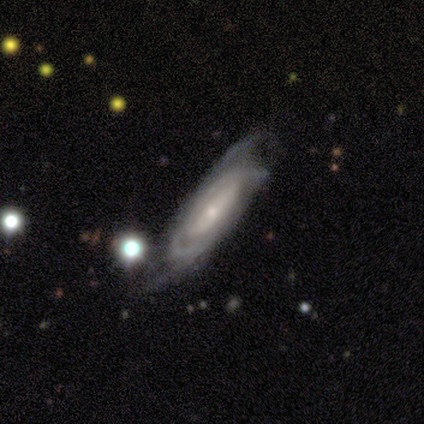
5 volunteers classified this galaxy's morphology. Overall: featured or disk (80%). Edge-on disk: no (100%). Bar: no (50%; strong 25%). Spiral arms: yes (75%). Spiral arm count: 2 (33%, tied with 3 and can't tell). Spiral winding: tight (67%; medium 33%). Bulge size: small (100%). Merging: none (50%; minor disturbance 25%).